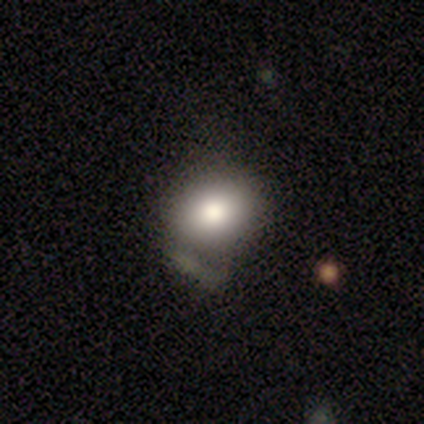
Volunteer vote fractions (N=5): Morphology: type=featured or disk (80%); edge-on=yes (50%, tied with no); edge-on bulge=boxy (50%, tied with rounded); merging=minor disturbance (40%, tied with major disturbance).